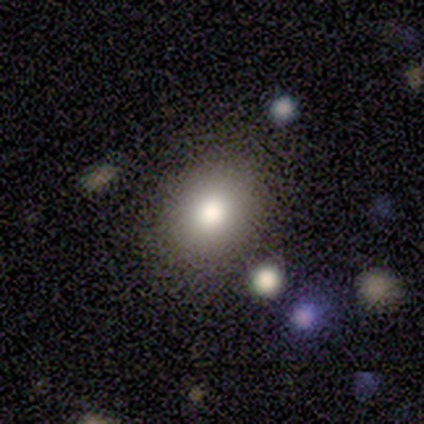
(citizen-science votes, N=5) Smooth or featured?
  - smooth: 100% *
  - featured or disk: 0%
  - star or artifact: 0%
How rounded?
  - in between: 60% *
  - round: 40%
  - cigar-shaped: 0%
Merging?
  - none: 80% *
  - merger: 20%
  - minor disturbance: 0%
  - major disturbance: 0%